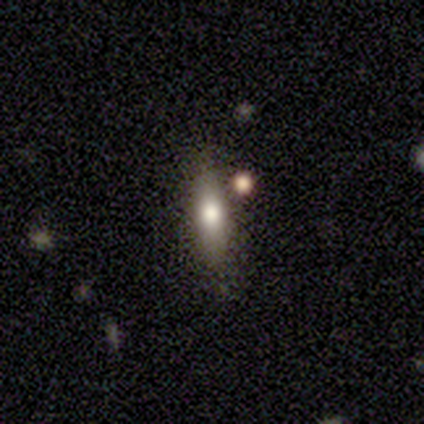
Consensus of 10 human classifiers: Smooth or featured: smooth — 80% (featured or disk — 20%)
How rounded: in between — 50% (tied with cigar-shaped — 50%)
Merging: none — 60% (minor disturbance — 40%)